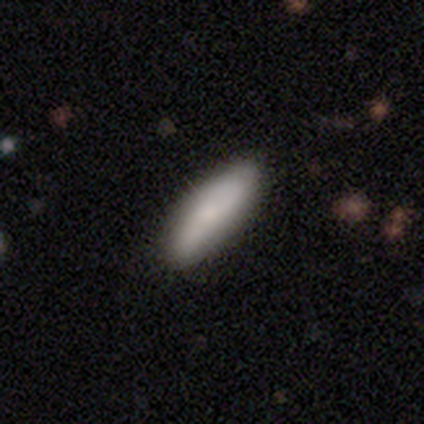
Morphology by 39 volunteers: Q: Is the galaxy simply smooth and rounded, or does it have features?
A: smooth — 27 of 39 (69%).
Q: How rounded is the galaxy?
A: in between — 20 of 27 (74%).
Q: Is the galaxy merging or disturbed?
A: none — 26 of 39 (67%).